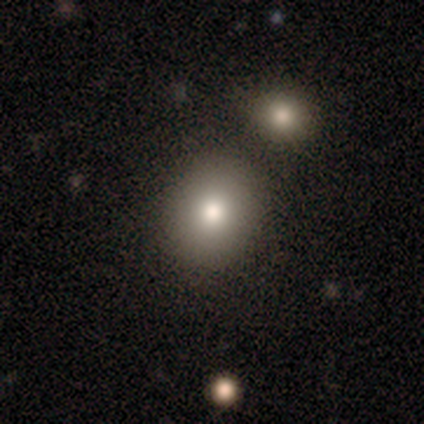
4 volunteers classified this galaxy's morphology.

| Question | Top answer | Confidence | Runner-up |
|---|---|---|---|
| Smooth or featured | smooth | 75% | star or artifact (25%) |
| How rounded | round | 100% | — |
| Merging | none | 67% | merger (33%) |